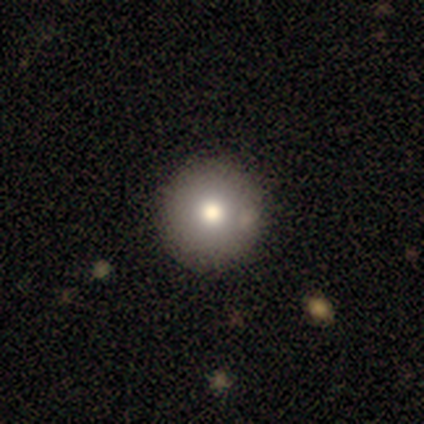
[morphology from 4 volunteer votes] A star or artifact, not a galaxy (75%).

Vote fractions:
- Smooth or featured? star or artifact: 75% / smooth: 25% / featured or disk: 0%